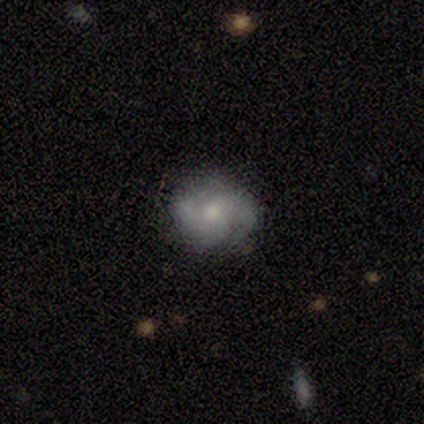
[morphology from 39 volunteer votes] type=featured or disk (54%); edge-on=no (100%); bar=no (71%); spiral arms=yes (86%); winding=tight (44%); arm count=2 (78%); bulge=moderate (48%); merging=none (74%).